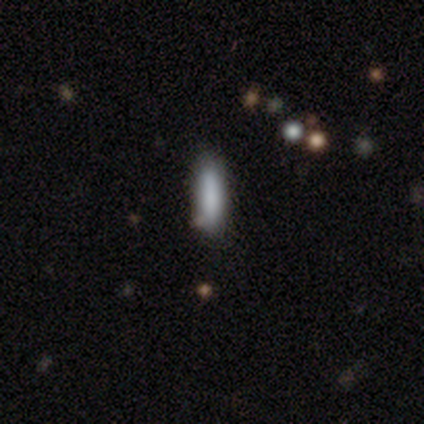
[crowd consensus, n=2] Consensus on every question: smooth or featured — smooth (100%); how rounded — cigar-shaped (100%); merging — none (100%).